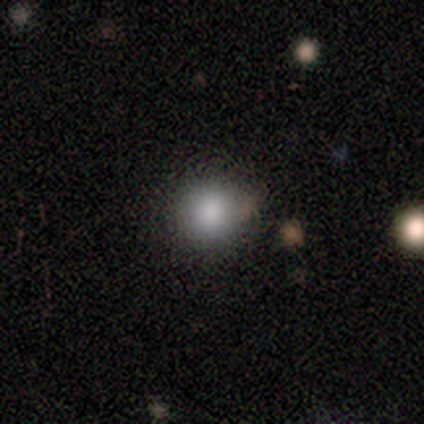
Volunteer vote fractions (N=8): Smooth or featured?
  - smooth: 100% *
  - featured or disk: 0%
  - star or artifact: 0%
How rounded?
  - round: 88% *
  - in between: 12%
  - cigar-shaped: 0%
Merging?
  - none: 88% *
  - minor disturbance: 12%
  - major disturbance: 0%
  - merger: 0%